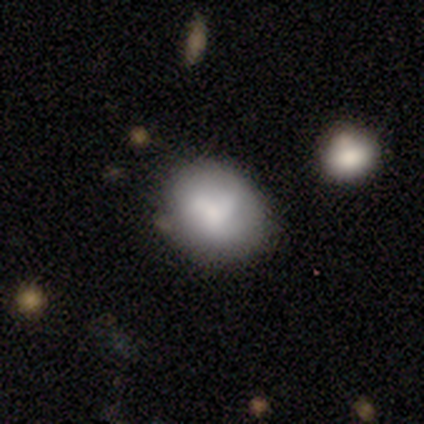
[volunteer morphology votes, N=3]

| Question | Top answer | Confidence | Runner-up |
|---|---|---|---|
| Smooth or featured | smooth | 100% | — |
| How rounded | round | 67% | in between (33%) |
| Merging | none | 67% | minor disturbance (33%) |